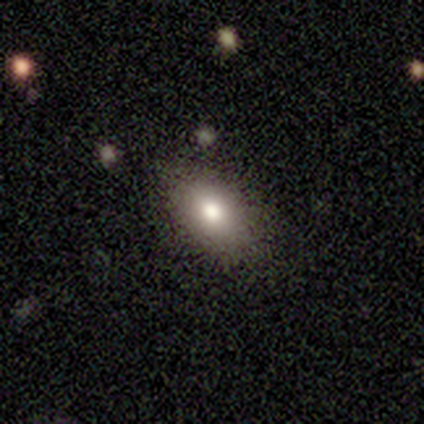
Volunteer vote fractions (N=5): Overall: star or artifact (60%; smooth 40%).